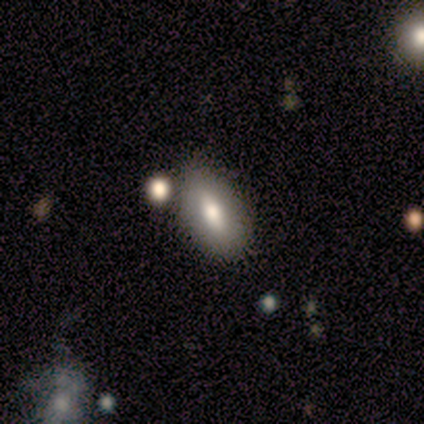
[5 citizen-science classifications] This is likely a smooth galaxy (60%). How rounded: clearly in between (100%). Merging: possibly none (50%, tied with minor disturbance).